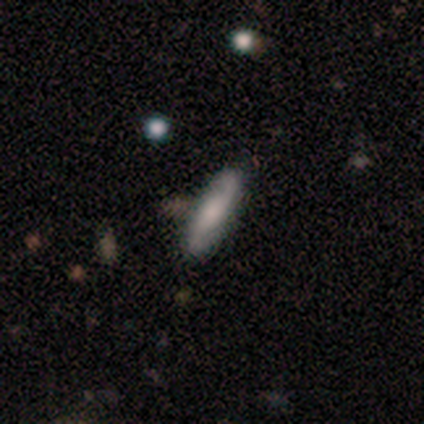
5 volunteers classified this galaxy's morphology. Volunteers were most divided on "smooth or featured": smooth: 60%, featured or disk: 20%, star or artifact: 20%. More confident: how rounded — cigar-shaped (100%); merging — none (75%).